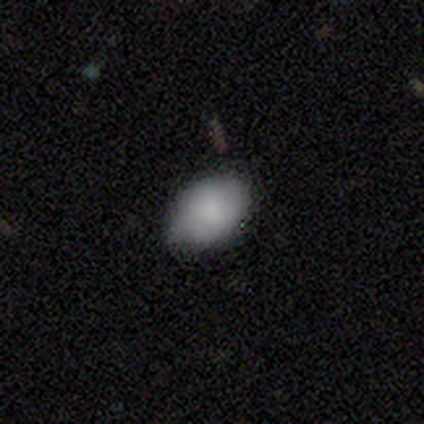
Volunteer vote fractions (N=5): Volunteers were most divided on "smooth or featured": smooth: 80%, star or artifact: 20%, featured or disk: 0%. More confident: how rounded — in between (100%); merging — none (100%).